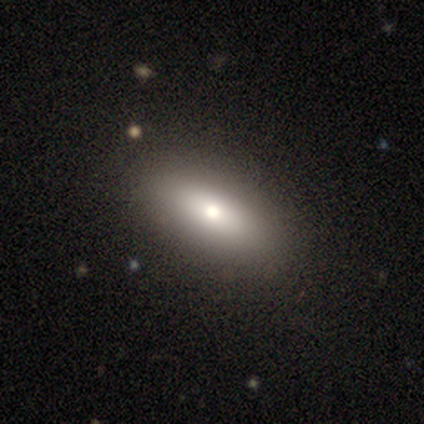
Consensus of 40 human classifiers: Smooth or featured: smooth — 75% (featured or disk — 20%)
How rounded: in between — 80% (cigar-shaped — 20%)
Merging: none — 87% (minor disturbance — 11%)